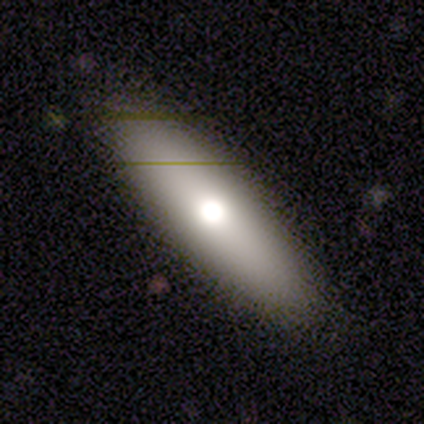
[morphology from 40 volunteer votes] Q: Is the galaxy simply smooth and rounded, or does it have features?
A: smooth — 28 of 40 (70%).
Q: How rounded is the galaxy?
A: in between — 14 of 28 (50%, tied with cigar-shaped).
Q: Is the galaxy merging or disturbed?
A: none — 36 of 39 (92%).